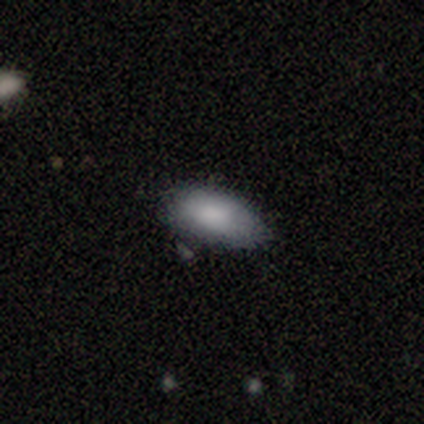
Morphology: type=smooth (80%); roundness=in between (75%); merging=none (75%).